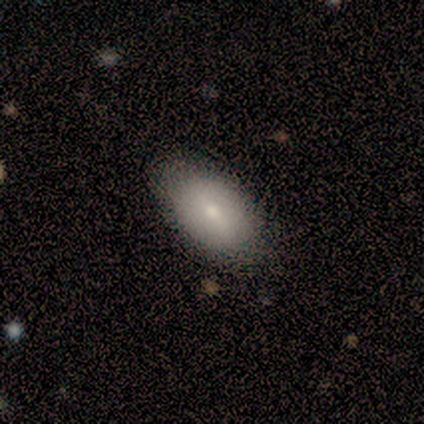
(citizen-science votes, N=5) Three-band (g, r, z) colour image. It shows a smooth galaxy with no disk features (100%) that is in between round and cigar-shaped (100%). Merging: none (100%).